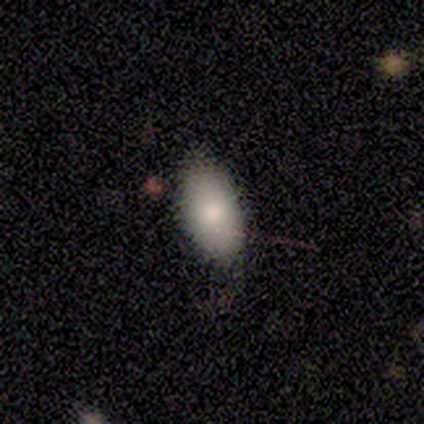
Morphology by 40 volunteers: smooth 88%, star or artifact 8%, featured or disk 5%. Down the decision tree: how rounded — in between (94%); merging — none (65%).